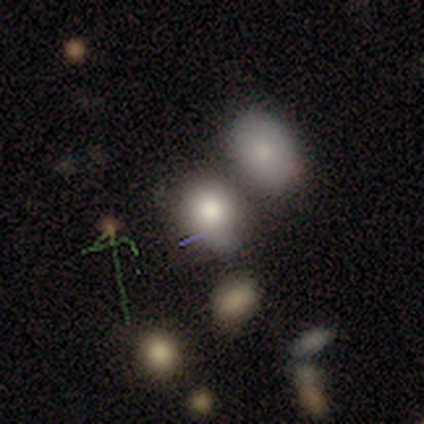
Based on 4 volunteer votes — This appears to be a smooth galaxy with no disk features (100%) that is round (50%, tied with in between). Merging: none (75%).